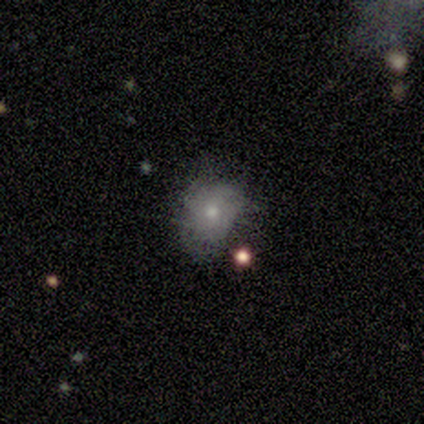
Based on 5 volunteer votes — Smooth or featured: featured or disk — 60% (star or artifact — 40%)
Edge-on disk: no — 100%
Bar: no — 100%
Spiral arms: no — 67% (yes — 33%)
Bulge size: small — 100%
Merging: none — 33% (tied with minor disturbance — 33%; major disturbance — 33%)